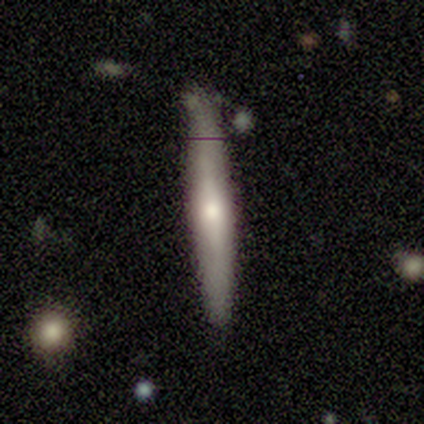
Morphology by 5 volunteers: smooth 80%, featured or disk 20%, star or artifact 0%. Down the decision tree: how rounded — cigar-shaped (100%); merging — none (80%).